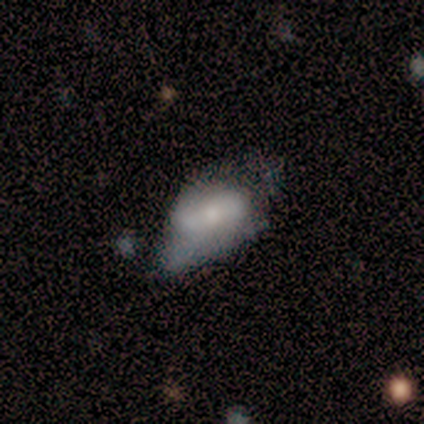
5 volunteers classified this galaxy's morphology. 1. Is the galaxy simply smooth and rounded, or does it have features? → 60% smooth, 40% featured or disk, 0% star or artifact.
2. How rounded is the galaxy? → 100% in between, 0% round, 0% cigar-shaped.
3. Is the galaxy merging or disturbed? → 60% major disturbance, 20% none, 20% merger, 0% minor disturbance.